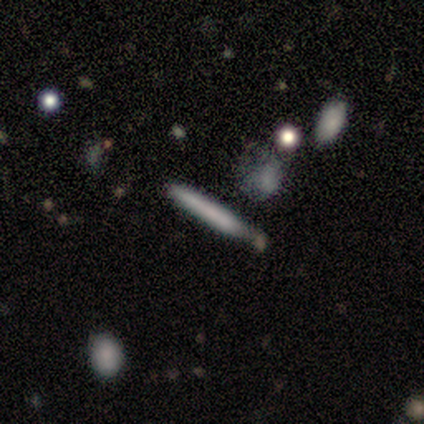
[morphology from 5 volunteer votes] Smooth or featured? 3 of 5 (60%) said smooth. How rounded? 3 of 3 (100%) said cigar-shaped. Merging? 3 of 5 (60%) said none.